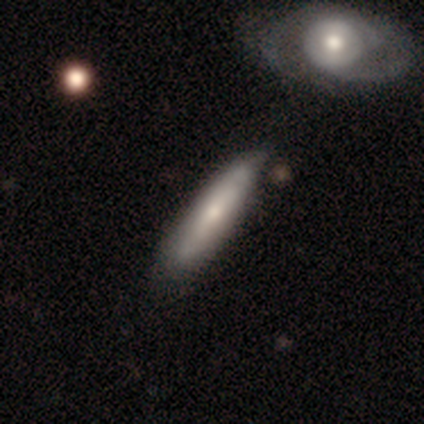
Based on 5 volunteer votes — smooth-or-featured: featured or disk: 60% | smooth: 40% | star or artifact: 0%
  disk-edge-on: no: 67% | yes: 33%
    bar: no: 100% | strong: 0% | weak: 0%
    has-spiral-arms: yes: 50% (tied) | no: 50% (tied)
      spiral-winding: loose: 100% | tight: 0% | medium: 0%
      spiral-arm-count: 2: 100% | 1: 0% | 3: 0% | 4: 0% | more than 4: 0% | can't tell: 0%
    bulge-size: moderate: 50% (tied) | small: 50% (tied) | dominant: 0% | large: 0% | none: 0%
  merging: none: 40% (tied) | minor disturbance: 40% (tied) | major disturbance: 20% | merger: 0%